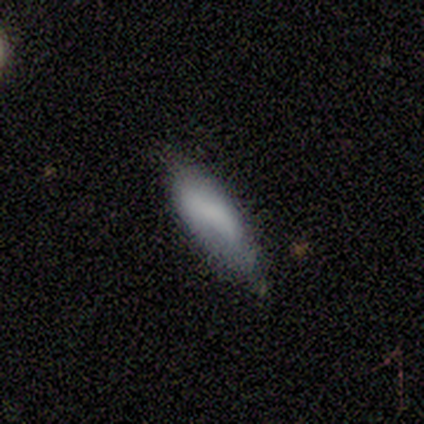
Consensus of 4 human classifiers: Smooth or featured? 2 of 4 (50%, tied with featured or disk) said smooth. How rounded? 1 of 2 (50%, tied with cigar-shaped) said in between. Merging? 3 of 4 (75%) said none.